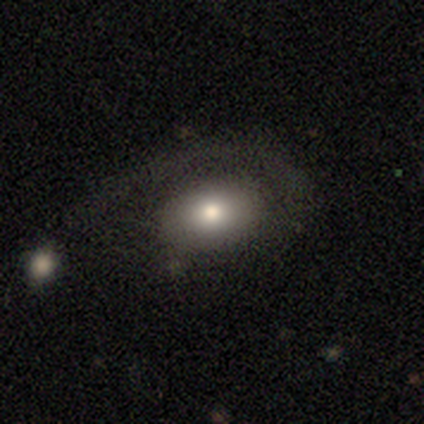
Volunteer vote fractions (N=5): Smooth or featured: featured or disk — 60% (smooth — 40%)
Edge-on disk: no — 100%
Bar: no — 67% (weak — 33%)
Spiral arms: yes — 67% (no — 33%)
Spiral winding: medium — 50% (tied with loose — 50%)
Spiral arm count: 1 — 100%
Bulge size: moderate — 67% (large — 33%)
Merging: major disturbance — 60% (minor disturbance — 20%)